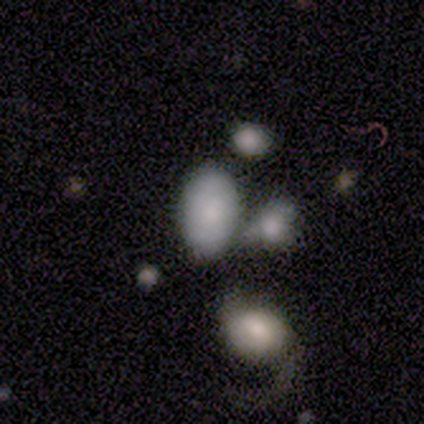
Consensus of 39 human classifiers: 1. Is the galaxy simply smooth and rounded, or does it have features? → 79% smooth, 10% featured or disk, 10% star or artifact.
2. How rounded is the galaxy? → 90% in between, 10% round, 0% cigar-shaped.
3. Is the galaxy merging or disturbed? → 49% none, 34% merger, 14% minor disturbance, 3% major disturbance.